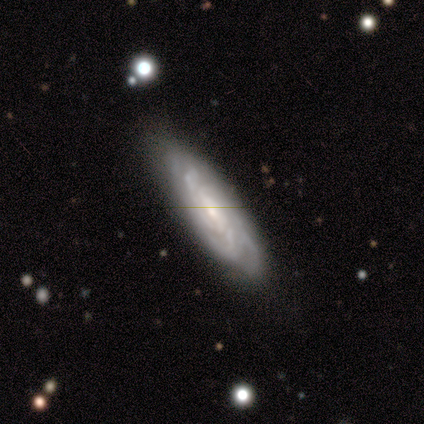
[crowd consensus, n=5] smooth-or-featured: featured or disk: 80% | smooth: 20% | star or artifact: 0%
  disk-edge-on: no: 75% | yes: 25%
    bar: strong: 33% (tied) | weak: 33% (tied) | no: 33% (tied)
    has-spiral-arms: yes: 100% | no: 0%
      spiral-winding: medium: 67% | tight: 33% | loose: 0%
      spiral-arm-count: 3: 33% (tied) | 4: 33% (tied) | can't tell: 33% (tied) | 1: 0% | 2: 0% | more than 4: 0%
    bulge-size: small: 100% | dominant: 0% | large: 0% | moderate: 0% | none: 0%
  merging: minor disturbance: 60% | none: 40% | major disturbance: 0% | merger: 0%